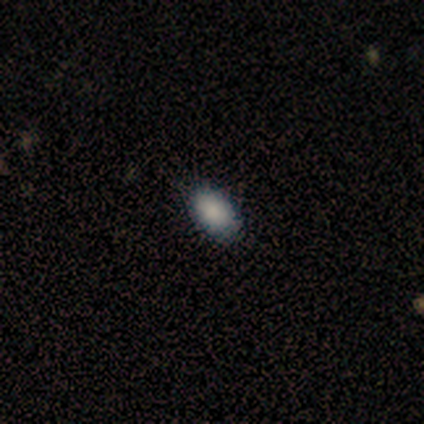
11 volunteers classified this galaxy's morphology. Q: Smooth or featured?
A: smooth (100%)
Q: How rounded?
A: in between (91%); runner-up: round (9%)
Q: Merging?
A: none (82%); runner-up: minor disturbance (18%)